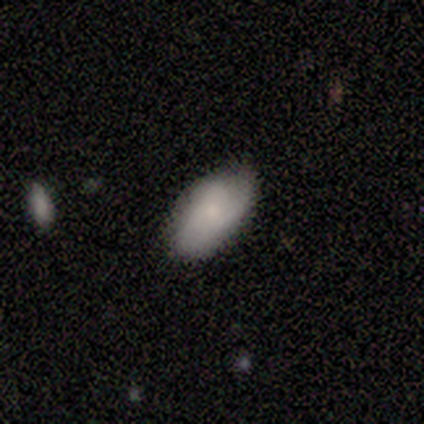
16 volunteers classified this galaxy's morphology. A smooth galaxy with no disk features (94%) that is in between round and cigar-shaped (93%).

Vote fractions:
- Smooth or featured? smooth: 94% / featured or disk: 6% / star or artifact: 0%
- How rounded? in between: 93% / cigar-shaped: 7% / round: 0%
- Merging? none: 88% / minor disturbance: 12% / major disturbance: 0% / merger: 0%